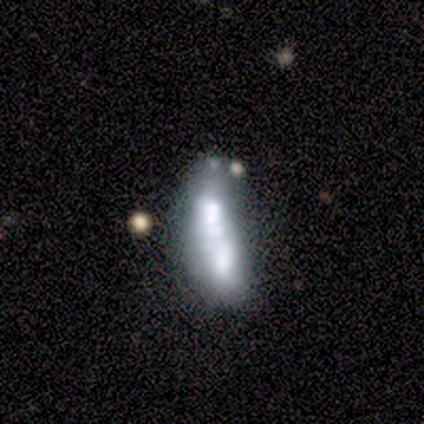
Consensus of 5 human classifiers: Smooth or featured: featured or disk — 60% (smooth — 40%)
Edge-on disk: no — 100%
Bar: no — 67% (weak — 33%)
Spiral arms: no — 67% (yes — 33%)
Bulge size: none — 67% (moderate — 33%)
Merging: merger — 60% (none — 20%)